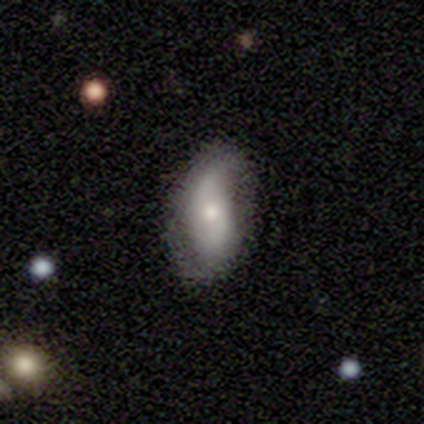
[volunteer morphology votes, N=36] Overall: featured or disk (61%; smooth 28%). Edge-on disk: no (100%). Bar: no (59%; weak 32%). Spiral arms: yes (86%). Spiral arm count: 2 (84%). Spiral winding: loose (68%). Bulge size: moderate (50%; small 36%). Merging: none (88%).